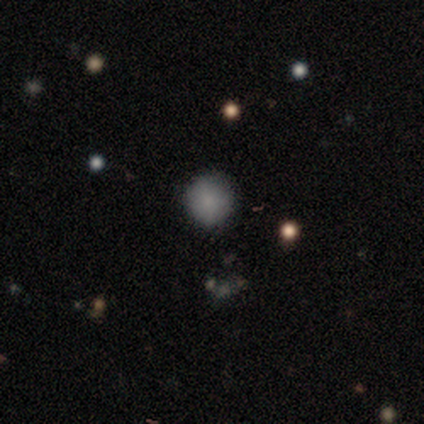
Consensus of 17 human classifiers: Smooth or featured: smooth — 82% (star or artifact — 12%)
How rounded: round — 93% (in between — 7%)
Merging: none — 100%